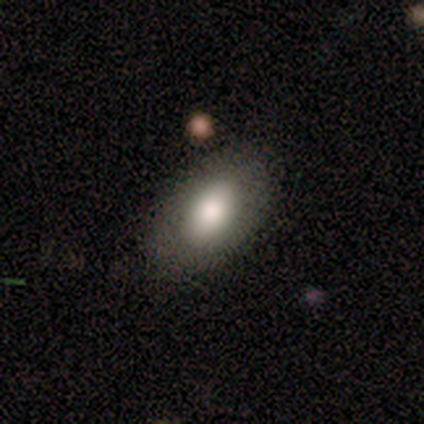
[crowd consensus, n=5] A smooth galaxy with no disk features (80%) that is in between round and cigar-shaped (75%).

Vote fractions:
- Smooth or featured? smooth: 80% / star or artifact: 20% / featured or disk: 0%
- How rounded? in between: 75% / round: 25% / cigar-shaped: 0%
- Merging? none: 100% / minor disturbance: 0% / major disturbance: 0% / merger: 0%